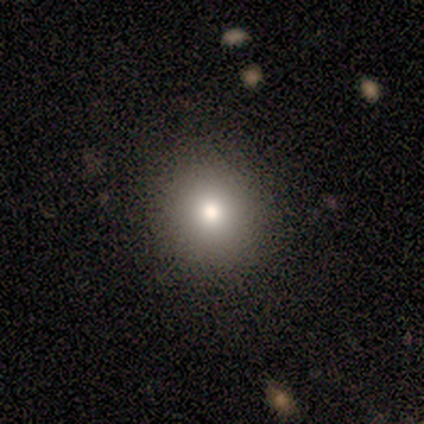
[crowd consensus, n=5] A smooth galaxy with no disk features (80%) that is round (50%, tied with in between).

Vote fractions:
- Smooth or featured? smooth: 80% / featured or disk: 20% / star or artifact: 0%
- How rounded? round: 50% (tied) / in between: 50% (tied) / cigar-shaped: 0%
- Merging? none: 100% / minor disturbance: 0% / major disturbance: 0% / merger: 0%